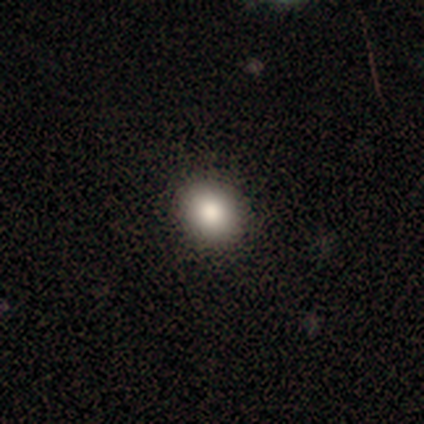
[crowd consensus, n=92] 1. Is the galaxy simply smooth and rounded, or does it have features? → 84% smooth, 11% star or artifact, 5% featured or disk.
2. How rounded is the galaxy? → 65% round, 34% in between, 1% cigar-shaped.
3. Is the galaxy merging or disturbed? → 93% none, 6% minor disturbance, 1% major disturbance, 0% merger.